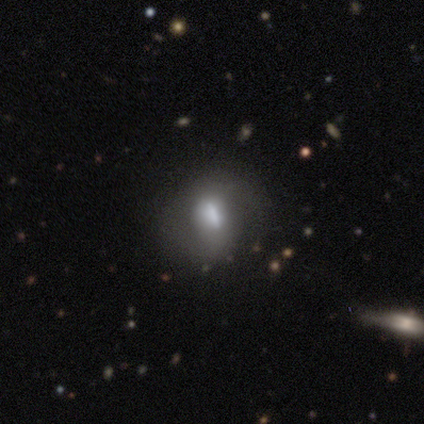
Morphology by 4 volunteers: Smooth or featured: featured or disk — 75% (smooth — 25%)
Edge-on disk: no — 100%
Bar: strong — 67% (weak — 33%)
Spiral arms: yes — 67% (no — 33%)
Spiral winding: medium — 50% (tied with loose — 50%)
Spiral arm count: 1 — 50% (tied with 2 — 50%)
Bulge size: large — 33% (tied with moderate — 33%; small — 33%)
Merging: none — 100%